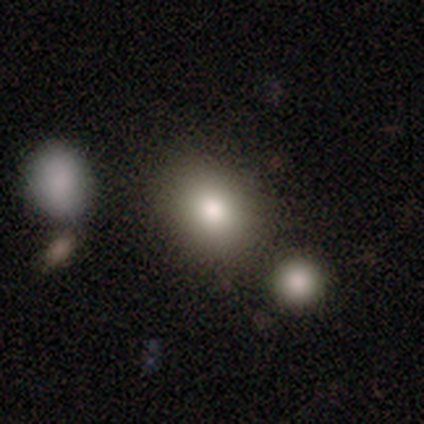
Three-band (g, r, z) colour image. It shows a smooth galaxy with no disk features (79%) that is round (63%). Merging: none (79%).